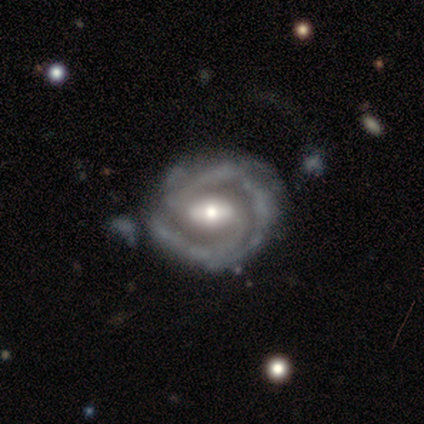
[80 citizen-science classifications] featured or disk 91%, star or artifact 5%, smooth 4%. Down the decision tree: edge-on disk — no (99%); bar — weak (54%); spiral arms — yes (94%); spiral arm count — 2 (82%); spiral winding — tight (50%); bulge size — moderate (58%); merging — none (50%).